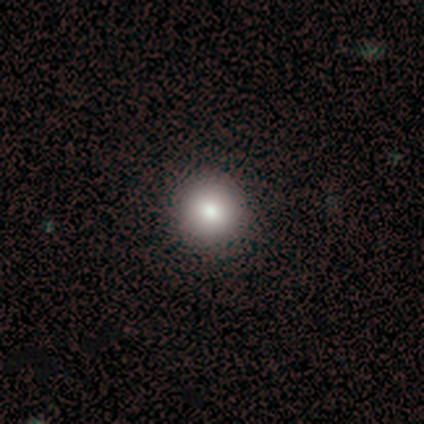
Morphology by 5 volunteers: A smooth galaxy with no disk features (100%) that is round (100%).

Vote fractions:
- Smooth or featured? smooth: 100% / featured or disk: 0% / star or artifact: 0%
- How rounded? round: 100% / in between: 0% / cigar-shaped: 0%
- Merging? none: 100% / minor disturbance: 0% / major disturbance: 0% / merger: 0%